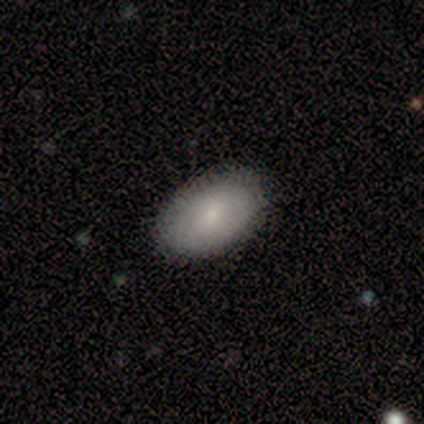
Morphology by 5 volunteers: Overall: smooth (80%). How rounded: in between (100%). Merging: none (80%).